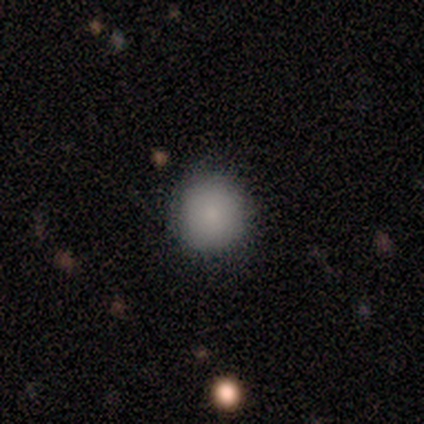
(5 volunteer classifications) Q: Smooth or featured?
A: smooth (100%)
Q: How rounded?
A: round (100%)
Q: Merging?
A: none (80%); runner-up: minor disturbance (20%)